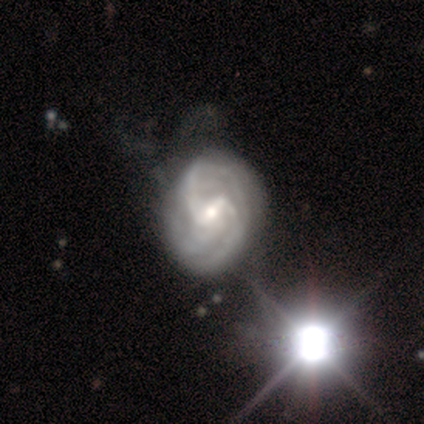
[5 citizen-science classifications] smooth-or-featured: featured or disk: 80% | star or artifact: 20% | smooth: 0%
  disk-edge-on: no: 100% | yes: 0%
    bar: weak: 100% | strong: 0% | no: 0%
    has-spiral-arms: yes: 100% | no: 0%
      spiral-winding: medium: 50% | tight: 25% | loose: 25%
      spiral-arm-count: 2: 75% | 3: 25% | 1: 0% | 4: 0% | more than 4: 0% | can't tell: 0%
    bulge-size: small: 50% | large: 25% | moderate: 25% | dominant: 0% | none: 0%
  merging: none: 100% | minor disturbance: 0% | major disturbance: 0% | merger: 0%